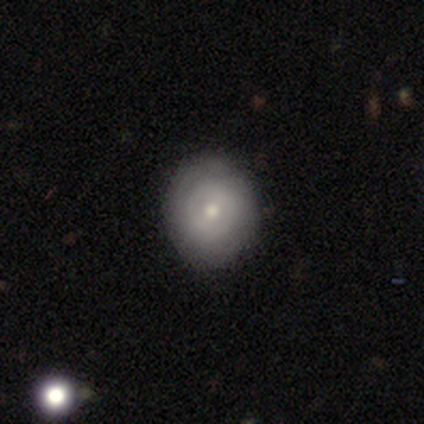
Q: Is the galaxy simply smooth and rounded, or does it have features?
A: smooth — 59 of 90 (66%).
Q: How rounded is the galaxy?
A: round — 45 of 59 (76%).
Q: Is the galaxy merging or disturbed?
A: none — 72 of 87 (83%).